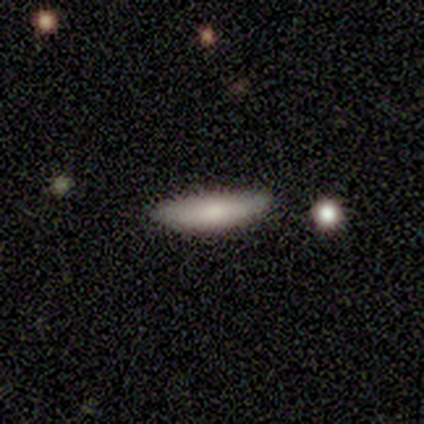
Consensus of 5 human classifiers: smooth_or_featured: smooth (p=0.80) [alt: featured or disk p=0.20]
how_rounded: cigar-shaped (p=0.75) [alt: in between p=0.25]
merging: none (p=1.00)